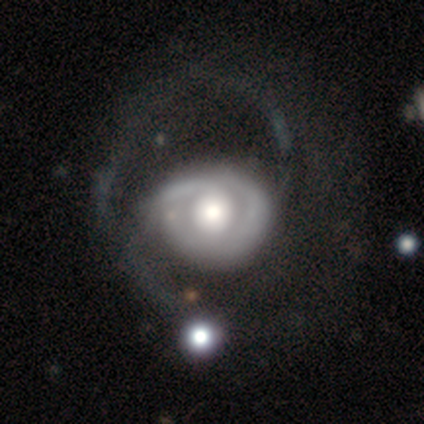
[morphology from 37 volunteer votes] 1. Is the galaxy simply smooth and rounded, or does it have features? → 86% featured or disk, 11% smooth, 3% star or artifact.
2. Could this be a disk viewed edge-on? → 100% no, 0% yes.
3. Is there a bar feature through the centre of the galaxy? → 94% no, 3% strong, 3% weak.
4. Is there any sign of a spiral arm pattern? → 59% yes, 41% no.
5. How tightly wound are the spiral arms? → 42% medium, 32% loose, 26% tight.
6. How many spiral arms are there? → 63% 2, 26% can't tell, 11% 1, 0% 3, 0% 4, 0% more than 4.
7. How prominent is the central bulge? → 53% large, 34% moderate, 6% dominant, 3% small, 3% none.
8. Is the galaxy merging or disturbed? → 47% major disturbance, 17% none, 11% merger, 0% minor disturbance.